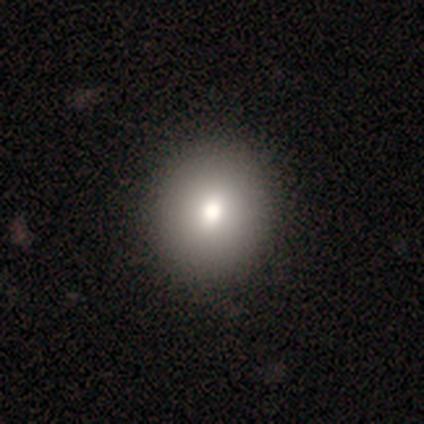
Volunteers were most divided on "smooth or featured" (2-way tie): smooth: 40%, featured or disk: 40%, star or artifact: 20%. More confident: how rounded — round (100%); merging — none (75%).